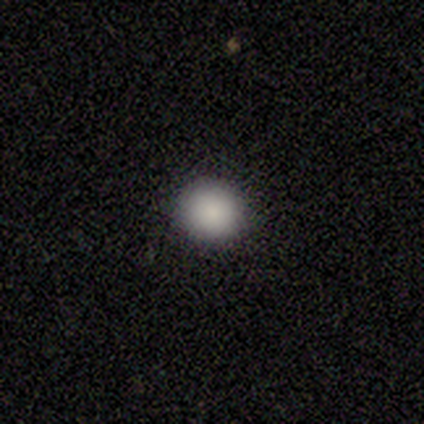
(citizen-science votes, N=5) Overall: smooth (100%). How rounded: round (100%). Merging: none (100%).